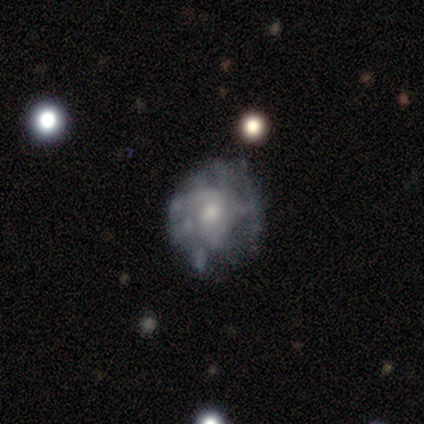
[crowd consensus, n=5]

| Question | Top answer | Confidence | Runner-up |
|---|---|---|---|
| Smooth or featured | smooth | 40% | tied: featured or disk (40%) |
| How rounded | round | 50% | tied: in between (50%) |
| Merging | none | 50% | minor disturbance (25%) |